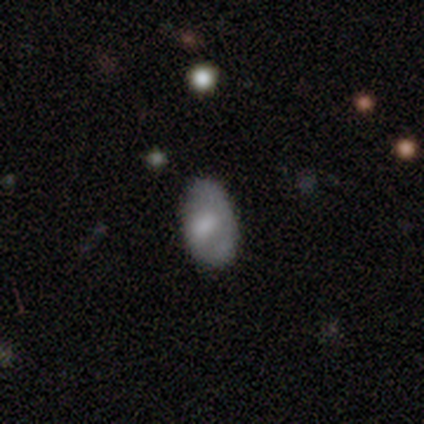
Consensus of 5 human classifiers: Overall: smooth (80%). How rounded: in between (100%). Merging: none (100%).